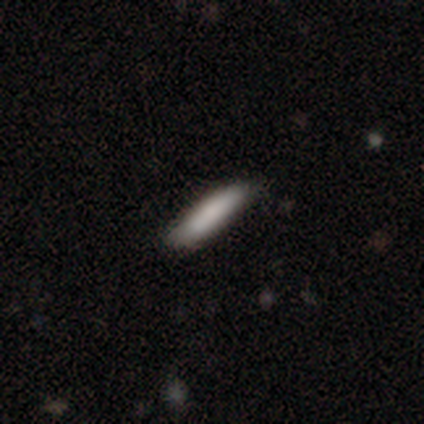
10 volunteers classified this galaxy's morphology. smooth 80%, featured or disk 20%, star or artifact 0%. Down the decision tree: how rounded — cigar-shaped (62%); merging — none (90%).